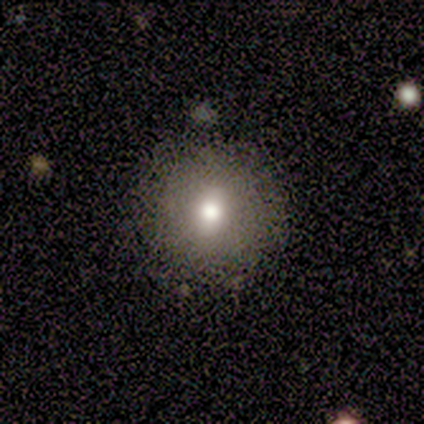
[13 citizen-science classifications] Smooth or featured?
  - smooth: 62% *
  - featured or disk: 23%
  - star or artifact: 15%
How rounded?
  - round: 88% *
  - in between: 12%
  - cigar-shaped: 0%
Merging?
  - none: 82% *
  - minor disturbance: 9%
  - major disturbance: 9%
  - merger: 0%